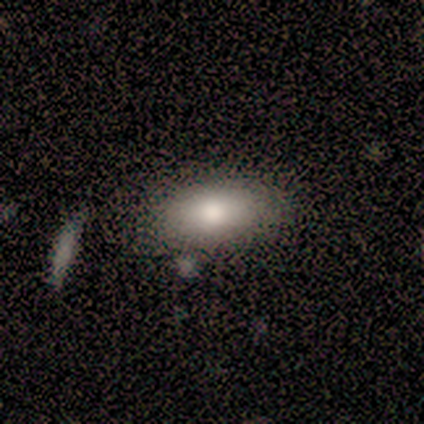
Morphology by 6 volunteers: This is clearly a smooth galaxy (100%). How rounded: clearly in between (83%). Merging: possibly none (50%).